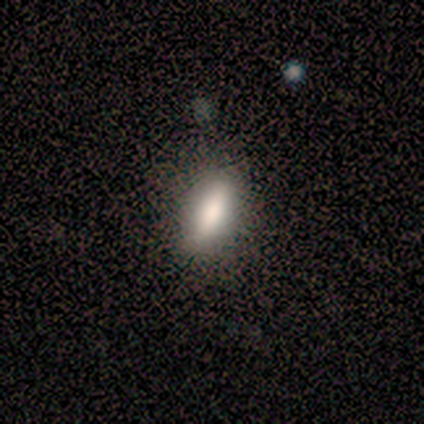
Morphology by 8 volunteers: This is clearly a smooth galaxy (88%). How rounded: possibly cigar-shaped (57%). Merging: clearly none (86%).